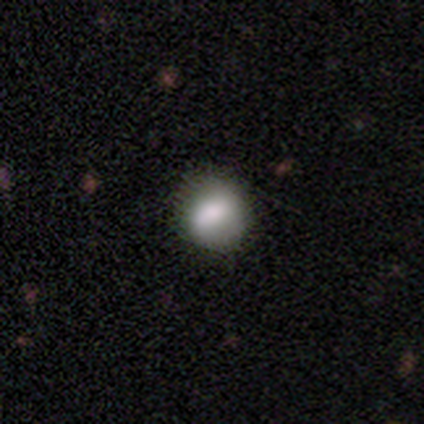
Morphology: type=smooth (100%); roundness=round (60%); merging=none (80%).